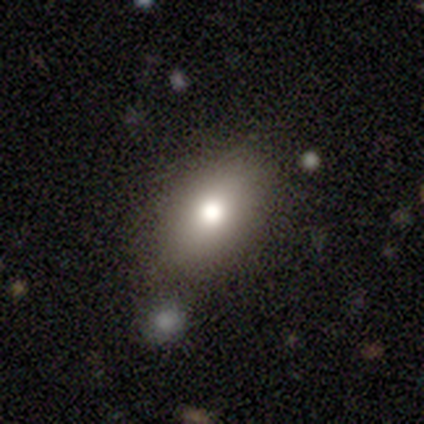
This is likely a smooth galaxy (79%). How rounded: clearly in between (83%). Merging: likely none (71%).